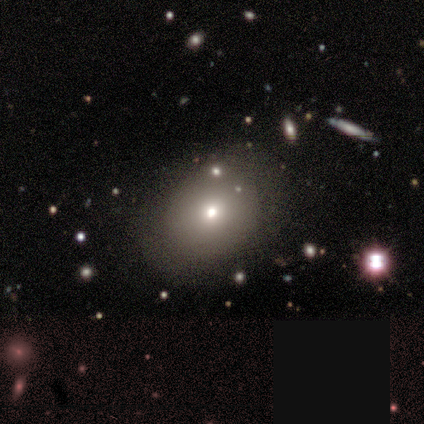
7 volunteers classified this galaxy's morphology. smooth 57%, featured or disk 29%, star or artifact 14%. Down the decision tree: how rounded — in between (100%); merging — none (67%).